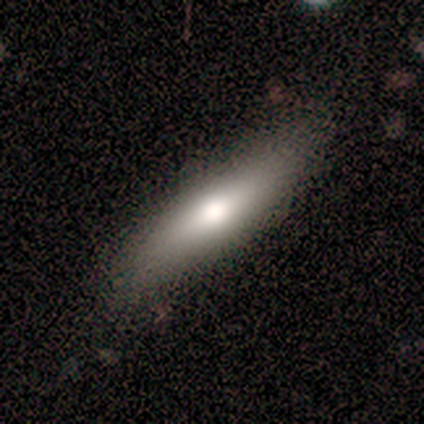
This appears to be a smooth galaxy with no disk features (80%) that is cigar-shaped (75%). Merging: none (100%).